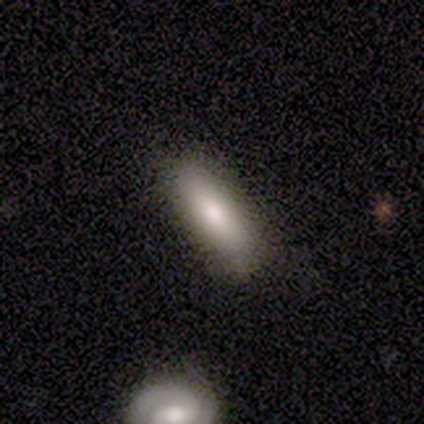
Smooth or featured?
  - smooth: 60% *
  - star or artifact: 40%
  - featured or disk: 0%
How rounded?
  - in between: 100% *
  - round: 0%
  - cigar-shaped: 0%
Merging?
  - none: 100% *
  - minor disturbance: 0%
  - major disturbance: 0%
  - merger: 0%